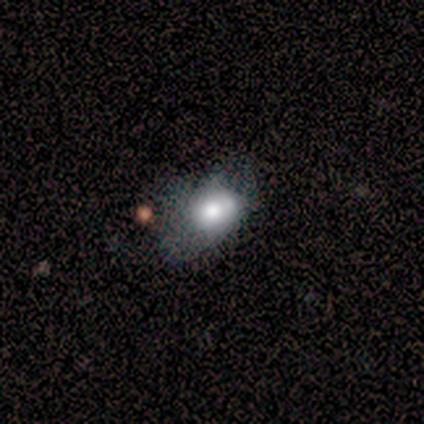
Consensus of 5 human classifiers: Overall: smooth (80%). How rounded: in between (100%). Merging: minor disturbance (60%; none 20%).